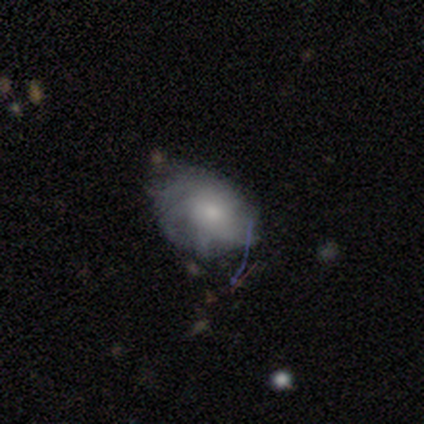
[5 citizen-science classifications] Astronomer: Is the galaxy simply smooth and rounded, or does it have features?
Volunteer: smooth — 40%, tied with featured or disk at 40%.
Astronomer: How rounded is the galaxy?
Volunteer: round — 50%, tied with in between at 50%.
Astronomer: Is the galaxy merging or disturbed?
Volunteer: none — 75%.